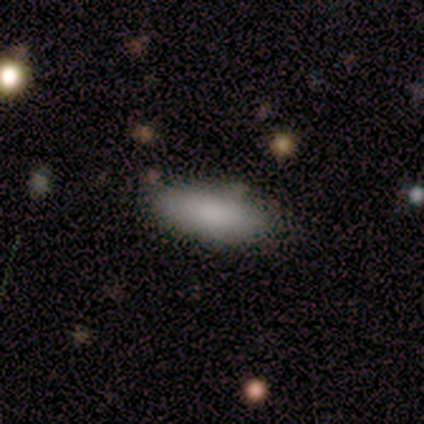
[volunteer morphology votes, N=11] smooth 100%, featured or disk 0%, star or artifact 0%. Down the decision tree: how rounded — in between (91%); merging — none (73%).